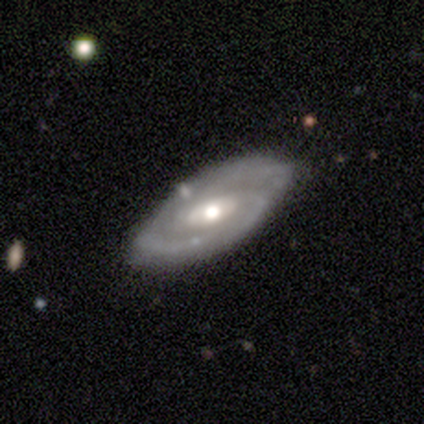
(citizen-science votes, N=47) This appears to be a featured or disk galaxy (83%) with a weak bar (50%), 2 (68%) tight (53%) spiral arms (94%) and a moderate central bulge (75%). Merging: none (83%).